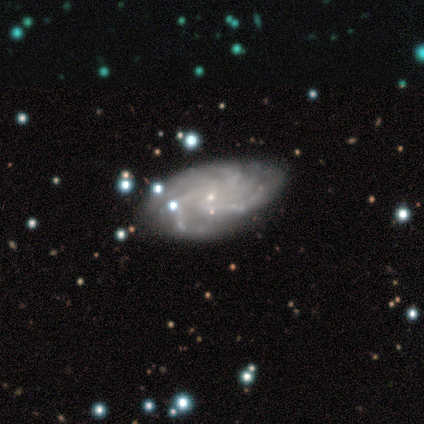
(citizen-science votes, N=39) This is clearly a featured or disk galaxy (87%). It is clearly not viewed edge-on (100%). Bar: clearly no (91%). Spiral arm pattern: clearly yes (97%). Spiral arm count: marginally more than 4 (33%, tied with can't tell). Spiral winding: likely tight (76%). Central bulge: clearly small (85%). Merging: likely none (79%).